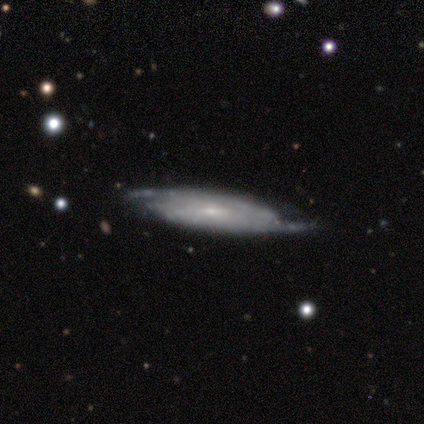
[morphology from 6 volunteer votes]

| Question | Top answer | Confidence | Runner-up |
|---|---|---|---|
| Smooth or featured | featured or disk | 67% | star or artifact (33%) |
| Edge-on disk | yes | 50% | tied: no (50%) |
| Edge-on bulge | none | 50% | tied: rounded (50%) |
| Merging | none | 100% | — |